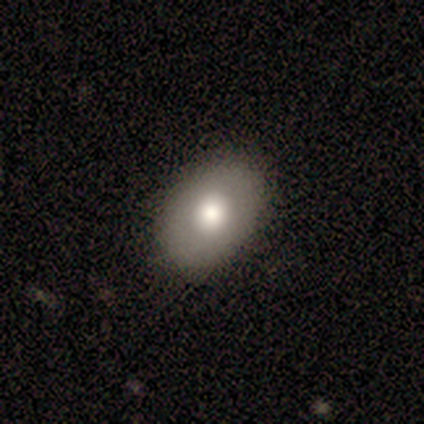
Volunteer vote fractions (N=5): This is clearly a smooth galaxy (80%). How rounded: clearly in between (100%). Merging: clearly none (100%).